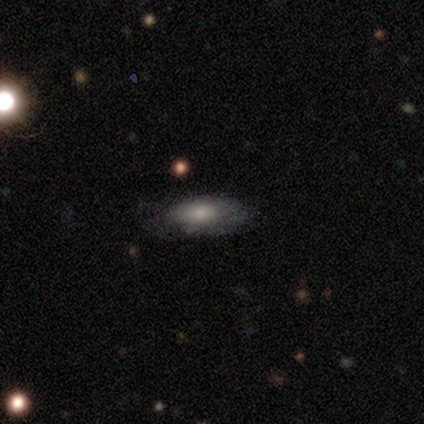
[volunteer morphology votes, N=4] Smooth or featured? smooth (100%)
How rounded? in between (50%, tied with cigar-shaped)
Merging? none (75%)